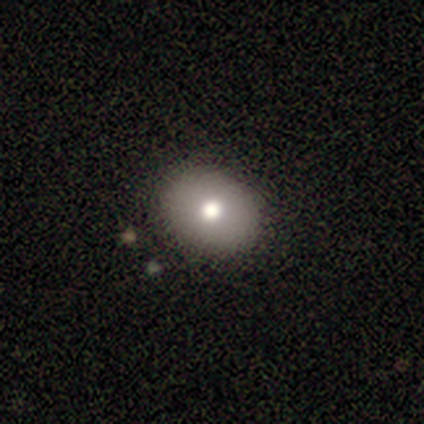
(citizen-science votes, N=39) Overall: smooth (85%). How rounded: in between (52%; round 48%). Merging: none (57%).